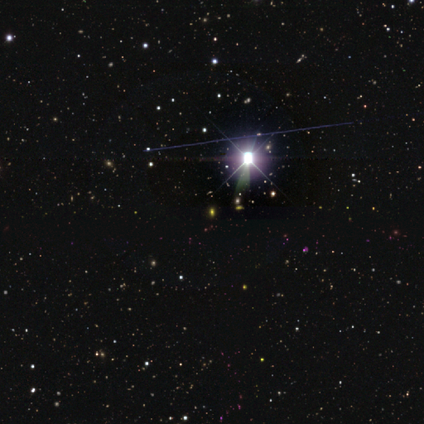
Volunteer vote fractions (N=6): star or artifact 100%, smooth 0%, featured or disk 0%.